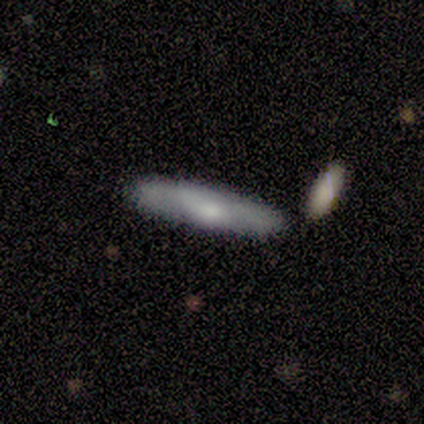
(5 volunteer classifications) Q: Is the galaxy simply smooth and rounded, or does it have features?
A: smooth — 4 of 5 (80%).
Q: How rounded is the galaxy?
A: cigar-shaped — 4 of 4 (100%).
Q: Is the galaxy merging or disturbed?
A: none — 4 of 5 (80%).